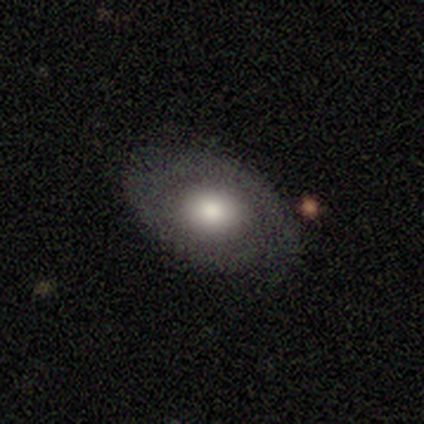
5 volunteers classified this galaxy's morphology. Smooth or featured: smooth — 80% (featured or disk — 20%)
How rounded: in between — 100%
Merging: minor disturbance — 60% (none — 40%)